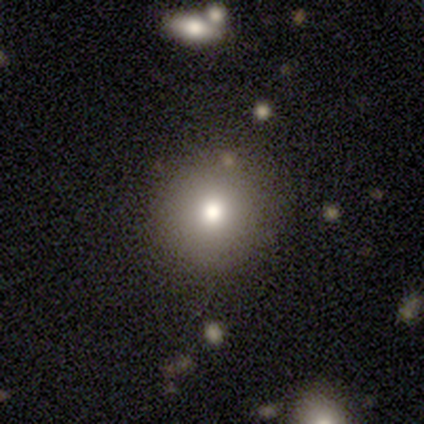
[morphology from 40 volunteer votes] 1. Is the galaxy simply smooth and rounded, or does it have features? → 78% smooth, 15% star or artifact, 8% featured or disk.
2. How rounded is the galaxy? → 97% round, 3% in between, 0% cigar-shaped.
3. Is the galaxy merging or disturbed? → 59% none, 6% minor disturbance, 3% major disturbance, 3% merger.